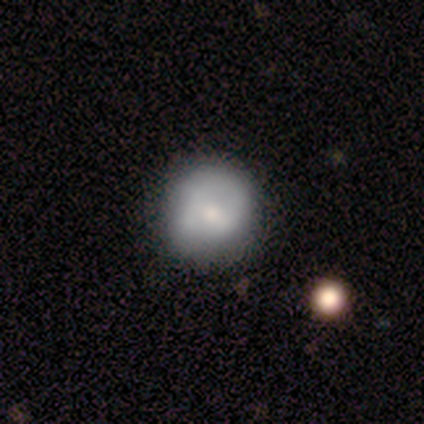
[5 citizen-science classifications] smooth_or_featured: smooth (p=0.60) [alt: featured or disk p=0.20]
how_rounded: round (p=1.00)
merging: none (p=0.75) [alt: minor disturbance p=0.25]